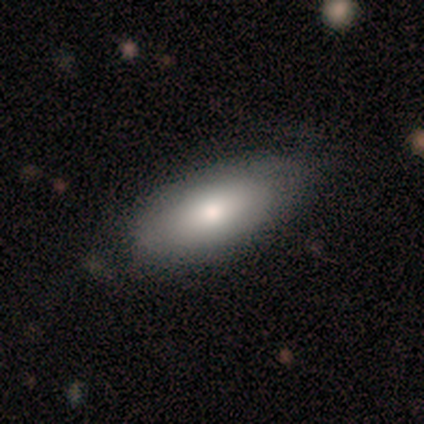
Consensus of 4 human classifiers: A smooth galaxy with no disk features (100%) that is in between round and cigar-shaped (100%).

Vote fractions:
- Smooth or featured? smooth: 100% / featured or disk: 0% / star or artifact: 0%
- How rounded? in between: 100% / round: 0% / cigar-shaped: 0%
- Merging? none: 50% / minor disturbance: 25% / major disturbance: 25% / merger: 0%